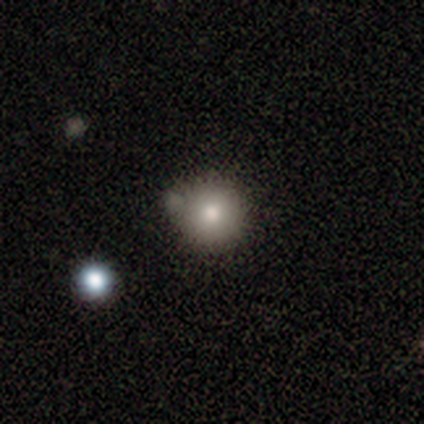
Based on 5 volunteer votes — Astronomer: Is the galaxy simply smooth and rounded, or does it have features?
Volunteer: smooth — 80%.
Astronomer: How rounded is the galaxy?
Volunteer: round — 100%.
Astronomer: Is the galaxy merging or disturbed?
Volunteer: none — 100%.